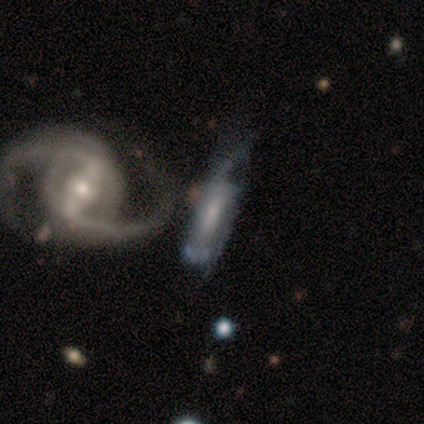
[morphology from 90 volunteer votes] This is clearly a featured or disk galaxy (81%). It is clearly not viewed edge-on (92%). Bar: marginally weak (40%). Spiral arm pattern: likely yes (78%). Spiral arm count: possibly 2 (56%). Spiral winding: marginally medium (38%). Central bulge: possibly small (49%). Merging: marginally merger (41%).